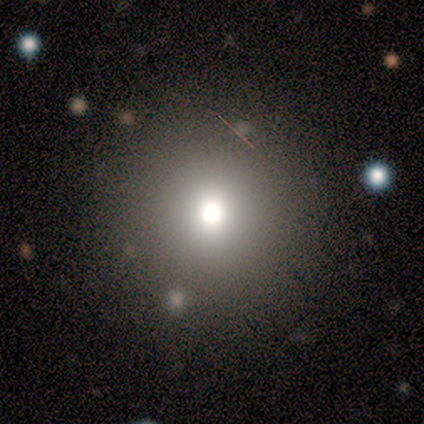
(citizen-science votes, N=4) A smooth galaxy with no disk features (75%) that is round (100%).

Vote fractions:
- Smooth or featured? smooth: 75% / star or artifact: 25% / featured or disk: 0%
- How rounded? round: 100% / in between: 0% / cigar-shaped: 0%
- Merging? none: 100% / minor disturbance: 0% / major disturbance: 0% / merger: 0%